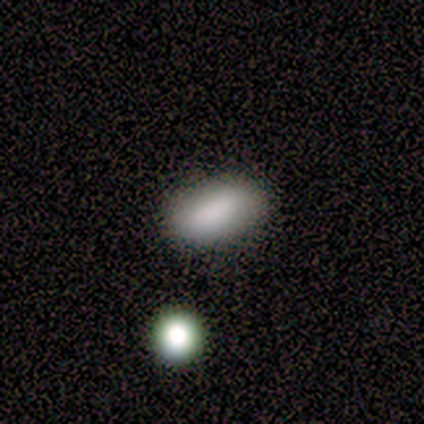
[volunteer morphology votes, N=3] smooth_or_featured: smooth (p=1.00)
how_rounded: in between (p=1.00)
merging: none (p=1.00)